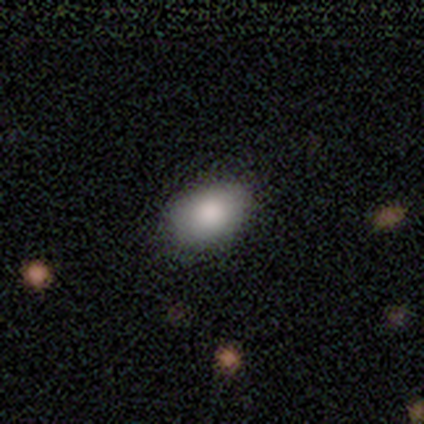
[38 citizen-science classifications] Overall: smooth (92%). How rounded: in between (89%). Merging: none (57%).